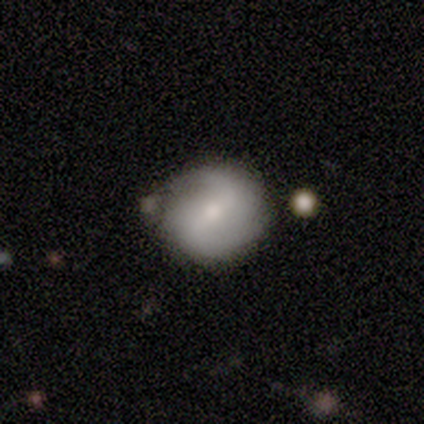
A featured or disk galaxy (76%) with a weak bar (57%), 2 (76%) loose (48%) spiral arms (89%) and a small central bulge (57%). Merging: none (58%).